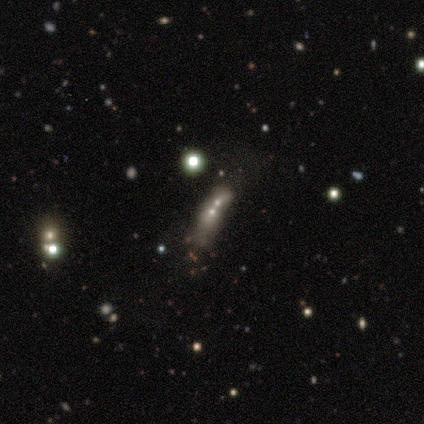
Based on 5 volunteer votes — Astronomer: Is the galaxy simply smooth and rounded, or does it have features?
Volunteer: star or artifact — 80%.